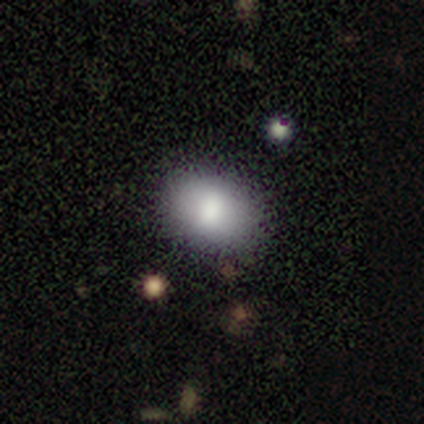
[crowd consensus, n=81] A smooth galaxy with no disk features (83%) that is in between round and cigar-shaped (70%). Merging: none (49%).